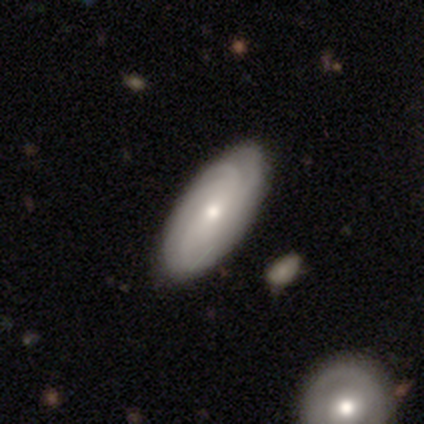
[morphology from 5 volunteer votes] Volunteers were most divided on "spiral arm count" (3-way tie): 2: 33%, 4: 33%, can't tell: 33%, 1: 0%, 3: 0%, more than 4: 0%. More confident: edge-on disk — no (100%); spiral arms — yes (100%); merging — none (80%); bar — no (67%); spiral winding — tight (67%); bulge size — moderate (67%); smooth or featured — featured or disk (60%).